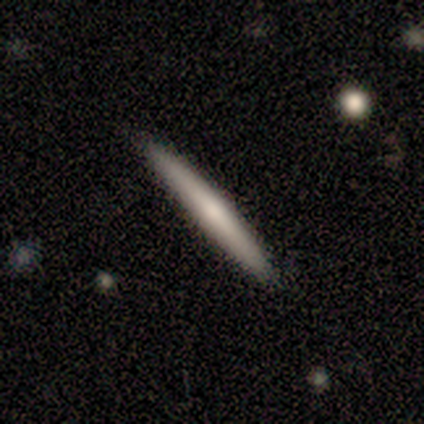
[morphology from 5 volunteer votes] A smooth galaxy with no disk features (40%, tied with featured or disk) that is cigar-shaped (100%).

Vote fractions:
- Smooth or featured? smooth: 40% (tied) / featured or disk: 40% (tied) / star or artifact: 20%
- How rounded? cigar-shaped: 100% / round: 0% / in between: 0%
- Merging? none: 75% / minor disturbance: 25% / major disturbance: 0% / merger: 0%